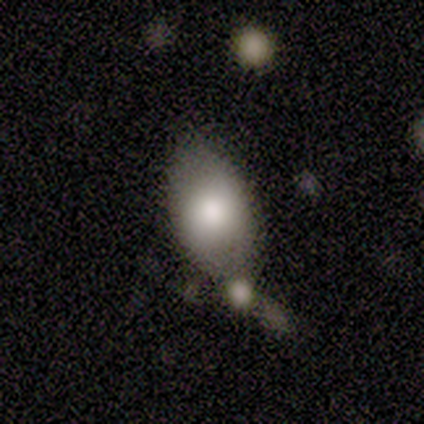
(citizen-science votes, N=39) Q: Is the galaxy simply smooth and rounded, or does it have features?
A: smooth — 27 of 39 (69%).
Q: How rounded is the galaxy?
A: in between — 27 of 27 (100%).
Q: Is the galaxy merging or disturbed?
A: none — 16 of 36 (44%).